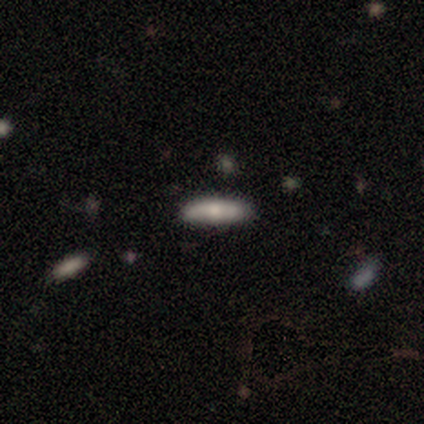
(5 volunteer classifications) Volunteers were most divided on "smooth or featured": smooth: 60%, featured or disk: 20%, star or artifact: 20%. More confident: how rounded — cigar-shaped (100%); merging — none (100%).